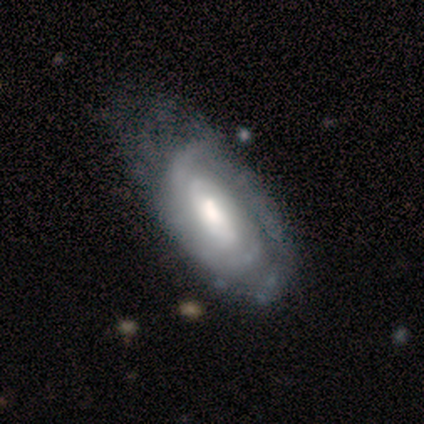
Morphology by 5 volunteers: This appears to be a featured or disk galaxy (80%) with a weak bar (67%), 2 (100%) tight (67%) spiral arms (100%) and a large central bulge (33%, tied with moderate and small). Merging: minor disturbance (60%).